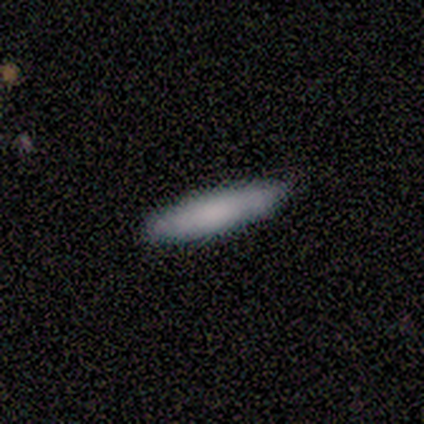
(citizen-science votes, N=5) Overall: smooth (60%; featured or disk 40%). How rounded: cigar-shaped (67%; in between 33%). Merging: none (100%).